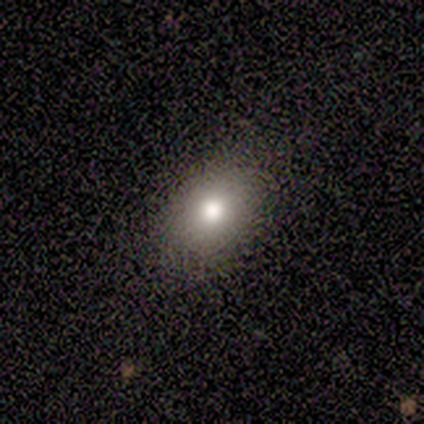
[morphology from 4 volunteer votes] smooth_or_featured: smooth (p=0.75) [alt: featured or disk p=0.25]
how_rounded: in between (p=1.00)
merging: none (p=0.75) [alt: minor disturbance p=0.25]